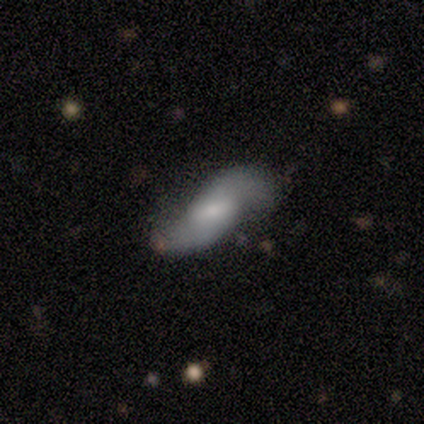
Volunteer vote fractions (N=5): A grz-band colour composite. It shows a featured or disk galaxy (80%) with a strong bar (33%, tied with weak and no), 2 (100%) loose (100%) spiral arms (67%) and a small central bulge (67%). Merging: none (40%).